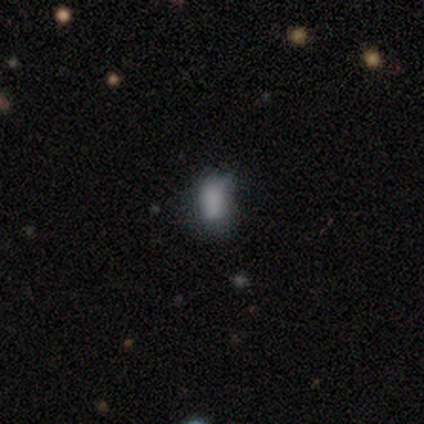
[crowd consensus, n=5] Morphology: type=smooth (60%); roundness=in between (100%); merging=none (33%, tied with minor disturbance and major disturbance).